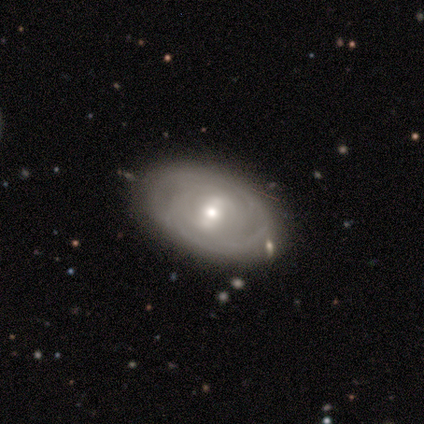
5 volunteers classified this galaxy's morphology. A smooth galaxy with no disk features (60%) that is in between round and cigar-shaped (100%).

Vote fractions:
- Smooth or featured? smooth: 60% / featured or disk: 40% / star or artifact: 0%
- How rounded? in between: 100% / round: 0% / cigar-shaped: 0%
- Merging? none: 80% / minor disturbance: 20% / major disturbance: 0% / merger: 0%